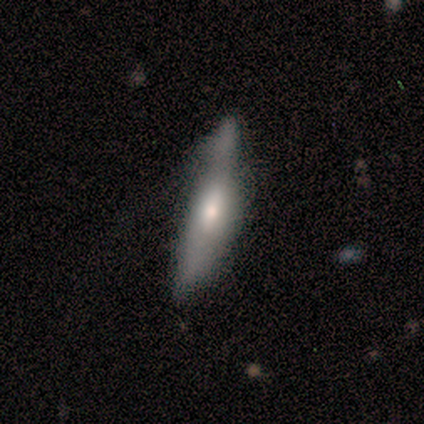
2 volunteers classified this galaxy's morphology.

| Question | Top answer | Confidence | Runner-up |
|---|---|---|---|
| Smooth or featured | smooth | 50% | tied: featured or disk (50%) |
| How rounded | cigar-shaped | 100% | — |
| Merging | none | 50% | tied: merger (50%) |